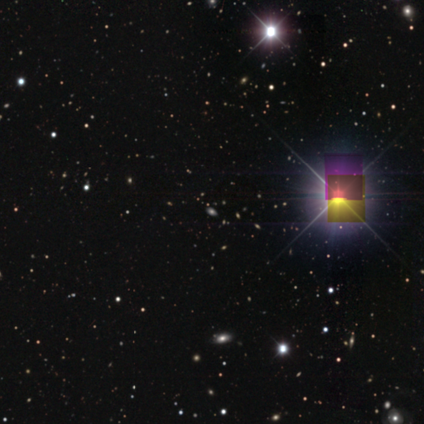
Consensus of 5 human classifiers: Smooth or featured: star or artifact — 100%